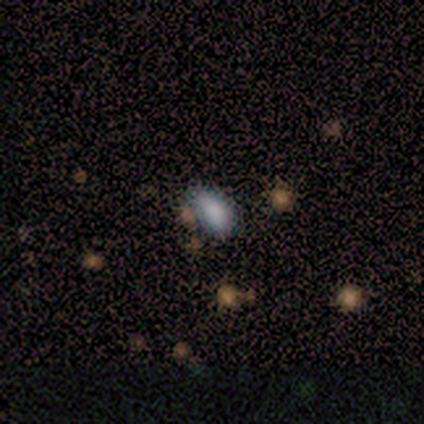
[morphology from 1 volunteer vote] Consensus on every question: smooth or featured — smooth (100%); how rounded — in between (100%); merging — minor disturbance (100%).